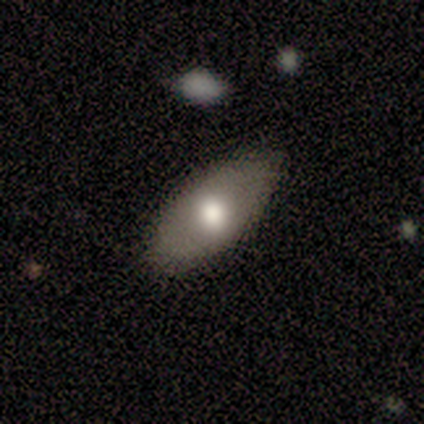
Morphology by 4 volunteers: smooth-or-featured: smooth: 75% | featured or disk: 25% | star or artifact: 0%
  how-rounded: in between: 67% | round: 33% | cigar-shaped: 0%
  merging: none: 50% (tied) | minor disturbance: 50% (tied) | major disturbance: 0% | merger: 0%